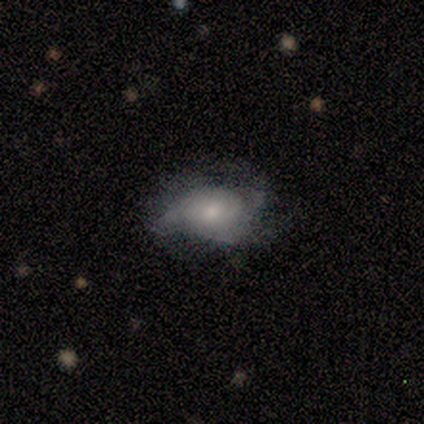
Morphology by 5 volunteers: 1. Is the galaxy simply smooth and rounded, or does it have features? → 60% featured or disk, 40% smooth, 0% star or artifact.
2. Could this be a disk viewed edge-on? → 100% no, 0% yes.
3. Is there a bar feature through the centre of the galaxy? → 67% no, 33% weak, 0% strong.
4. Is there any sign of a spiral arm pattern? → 67% no, 33% yes.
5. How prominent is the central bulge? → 100% small, 0% dominant, 0% large, 0% moderate, 0% none.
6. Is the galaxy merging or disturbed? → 60% major disturbance, 20% none, 20% minor disturbance, 0% merger.